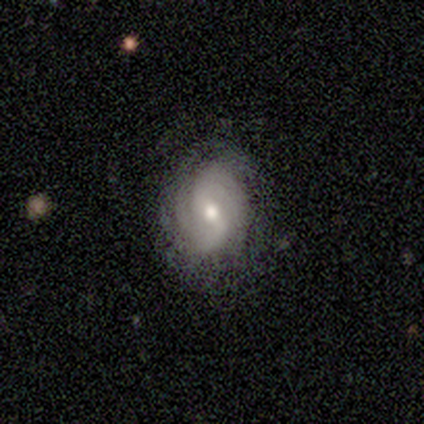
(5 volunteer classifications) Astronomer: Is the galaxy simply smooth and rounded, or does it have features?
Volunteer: featured or disk — 60% (runner-up: smooth, 40%).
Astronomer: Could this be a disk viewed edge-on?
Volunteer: no — 100%.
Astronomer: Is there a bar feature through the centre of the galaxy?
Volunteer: strong — 33%, tied with weak and no at 33%.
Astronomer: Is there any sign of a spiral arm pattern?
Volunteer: yes — 100%.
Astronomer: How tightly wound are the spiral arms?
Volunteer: tight — 67%.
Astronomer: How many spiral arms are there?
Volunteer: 2 — 100%.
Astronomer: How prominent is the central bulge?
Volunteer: moderate — 67%.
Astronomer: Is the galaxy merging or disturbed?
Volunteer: none — 80%.